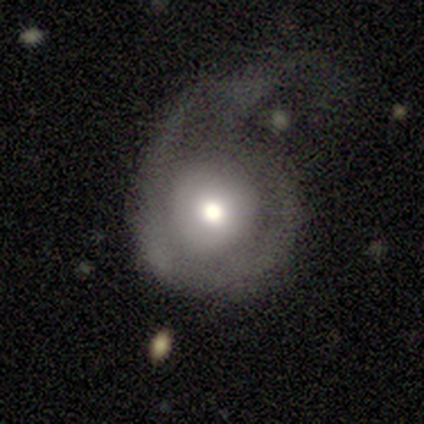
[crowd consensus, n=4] This appears to be a featured or disk galaxy (75%) with no bar (100%), no spiral arms (100%) and a moderate central bulge (67%). Merging: major disturbance (75%).